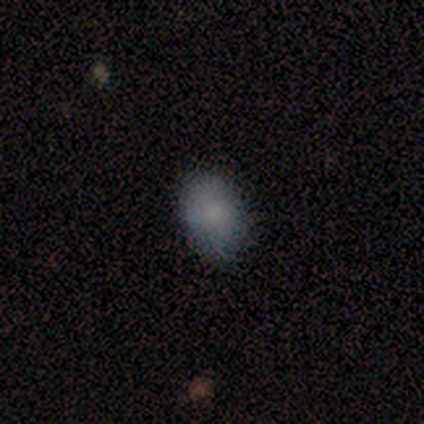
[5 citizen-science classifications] Q: Smooth or featured?
A: smooth (80%); runner-up: featured or disk (20%)
Q: How rounded?
A: in between (100%)
Q: Merging?
A: none (60%); runner-up: minor disturbance (40%)